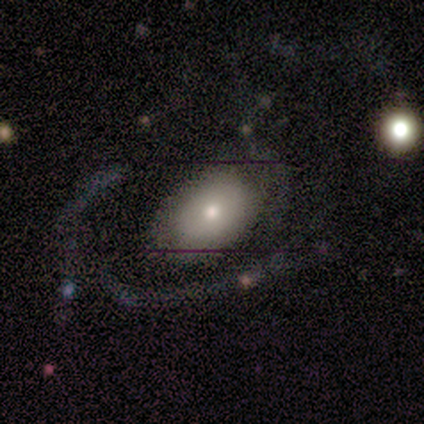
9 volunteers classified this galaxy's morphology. Smooth or featured?
  - smooth: 56% *
  - featured or disk: 44%
  - star or artifact: 0%
How rounded?
  - in between: 80% *
  - round: 20%
  - cigar-shaped: 0%
Merging?
  - none: 67% *
  - minor disturbance: 22%
  - major disturbance: 11%
  - merger: 0%